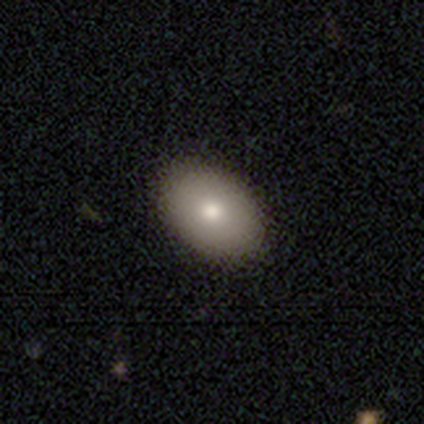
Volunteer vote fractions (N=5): This is likely a featured or disk galaxy (60%). It is clearly not viewed edge-on (100%). Bar: clearly no (100%). Spiral arm pattern: clearly no (100%). Central bulge: likely moderate (67%). Merging: clearly none (100%).